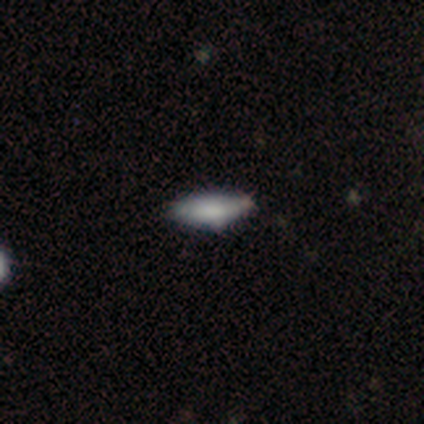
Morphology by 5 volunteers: Overall: smooth (80%). How rounded: in between (100%). Merging: none (50%, tied with minor disturbance).